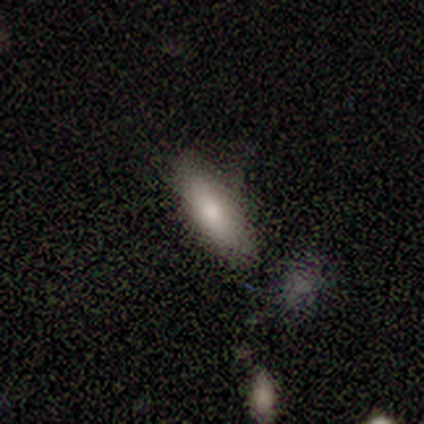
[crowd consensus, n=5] This appears to be a smooth galaxy with no disk features (100%) that is cigar-shaped (60%). Merging: none (80%).